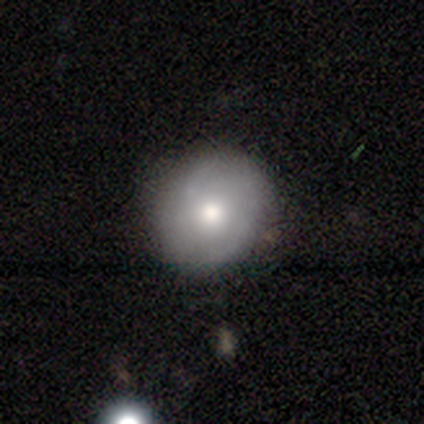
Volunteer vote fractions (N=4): smooth_or_featured: smooth (p=0.50) [tied with: featured or disk p=0.50]
how_rounded: round (p=1.00)
merging: none (p=0.75) [alt: minor disturbance p=0.25]